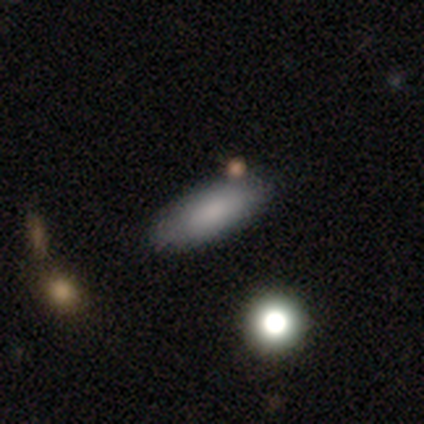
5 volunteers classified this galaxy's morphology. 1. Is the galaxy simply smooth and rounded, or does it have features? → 80% smooth, 20% star or artifact, 0% featured or disk.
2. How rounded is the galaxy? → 50% in between (tied), 50% cigar-shaped (tied), 0% round.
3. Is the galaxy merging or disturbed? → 100% none, 0% minor disturbance, 0% major disturbance, 0% merger.